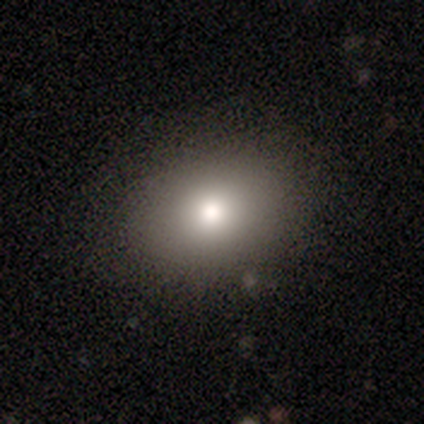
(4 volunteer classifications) smooth 100%, featured or disk 0%, star or artifact 0%. Down the decision tree: how rounded — in between (75%); merging — none (100%).